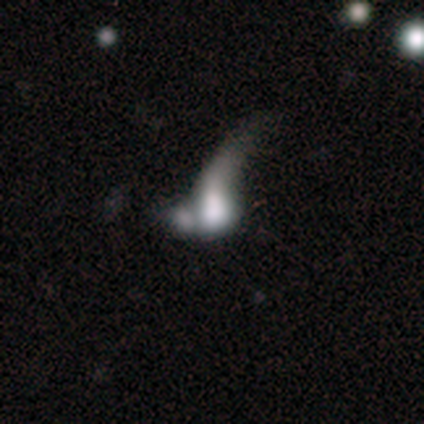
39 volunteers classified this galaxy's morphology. type=smooth (44%); roundness=in between (59%); merging=merger (45%).